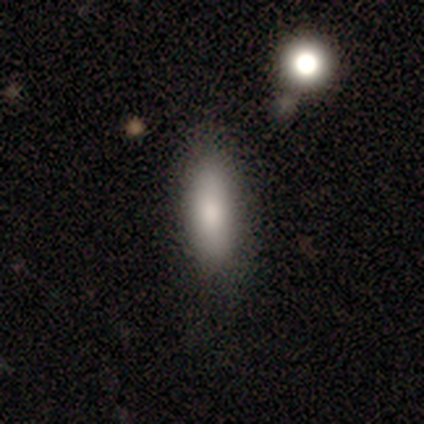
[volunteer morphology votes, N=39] Smooth or featured?
  - smooth: 82% *
  - featured or disk: 18%
  - star or artifact: 0%
How rounded?
  - in between: 81% *
  - cigar-shaped: 19%
  - round: 0%
Merging?
  - none: 54% *
  - minor disturbance: 13%
  - merger: 8%
  - major disturbance: 0%